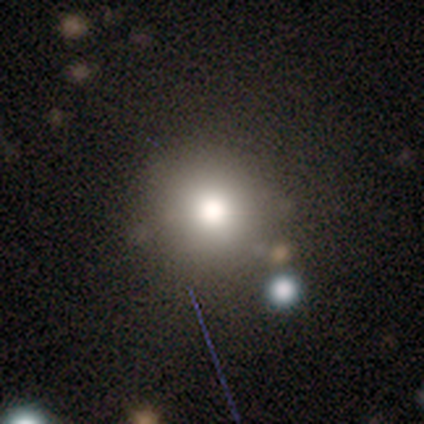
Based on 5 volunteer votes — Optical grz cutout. It shows a smooth galaxy with no disk features (60%) that is round (100%). Merging: none (50%, tied with minor disturbance).